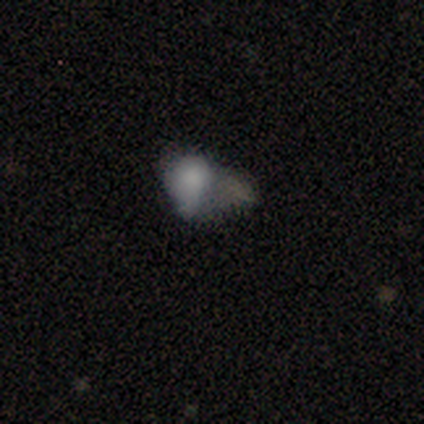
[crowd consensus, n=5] Volunteers were most divided on "merging": merger: 40%, none: 20%, minor disturbance: 20%, major disturbance: 20%. More confident: smooth or featured — smooth (80%); how rounded — in between (75%).